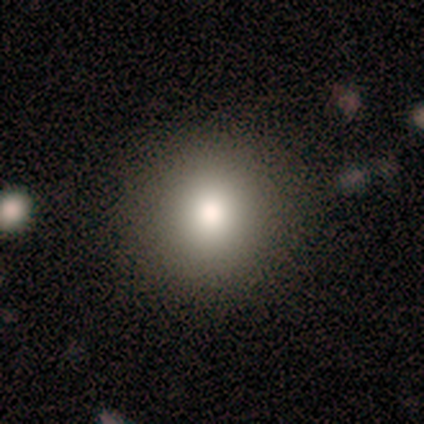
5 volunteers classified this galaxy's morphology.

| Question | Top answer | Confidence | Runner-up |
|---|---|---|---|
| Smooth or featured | smooth | 100% | — |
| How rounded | round | 80% | in between (20%) |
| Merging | none | 100% | — |